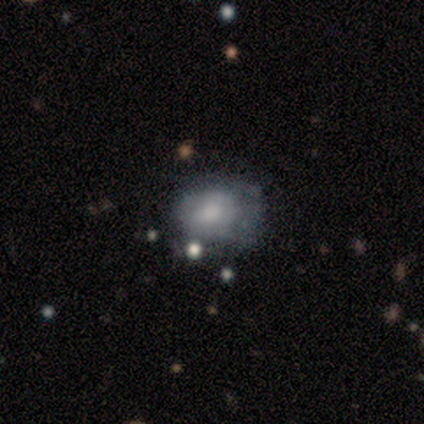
smooth 58%, featured or disk 39%, star or artifact 3%. Down the decision tree: how rounded — round (59%); merging — minor disturbance (49%).